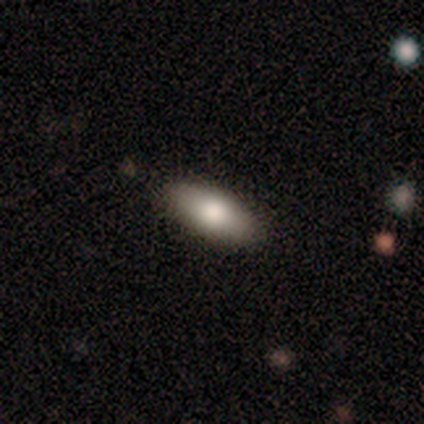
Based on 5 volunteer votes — smooth-or-featured: smooth: 80% | featured or disk: 20% | star or artifact: 0%
  how-rounded: in between: 75% | cigar-shaped: 25% | round: 0%
  merging: none: 100% | minor disturbance: 0% | major disturbance: 0% | merger: 0%